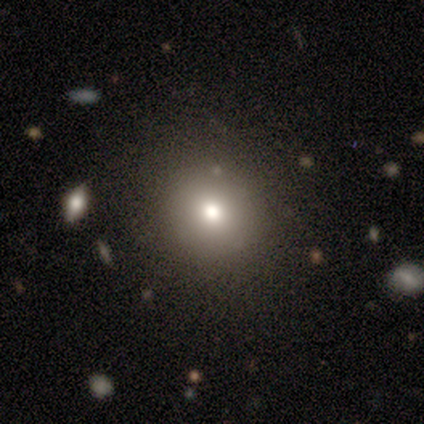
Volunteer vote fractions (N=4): Smooth or featured: smooth — 100%
How rounded: round — 100%
Merging: none — 100%